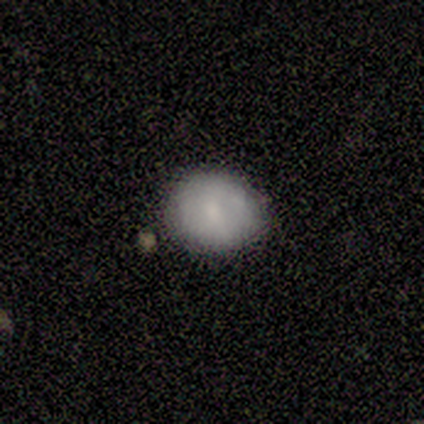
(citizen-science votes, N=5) Volunteers were most divided on "smooth or featured": smooth: 60%, featured or disk: 40%, star or artifact: 0%. More confident: how rounded — round (100%); merging — none (60%).